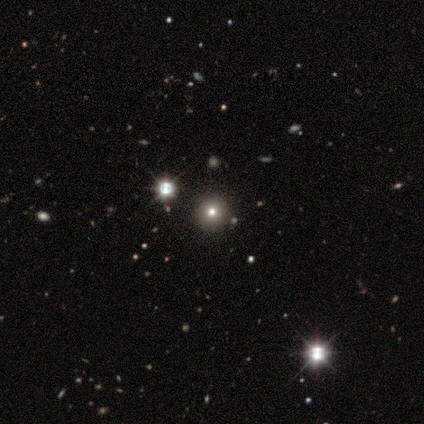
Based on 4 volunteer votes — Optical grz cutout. It shows a smooth galaxy with no disk features (50%, tied with star or artifact) that is round (100%). Merging: none (100%).